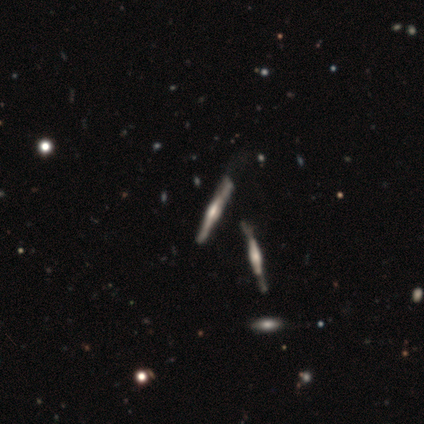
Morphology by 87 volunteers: Overall: featured or disk (84%). Edge-on disk: yes (97%). Edge-on bulge: rounded (55%; boxy 42%). Merging: none (56%; minor disturbance 23%).